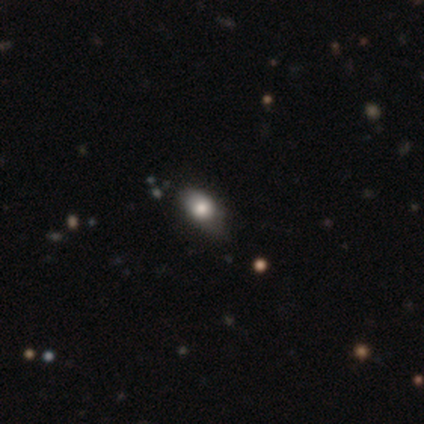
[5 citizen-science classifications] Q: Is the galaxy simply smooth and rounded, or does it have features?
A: smooth — 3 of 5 (60%).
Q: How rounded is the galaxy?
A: in between — 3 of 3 (100%).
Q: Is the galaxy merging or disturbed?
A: minor disturbance — 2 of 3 (67%).